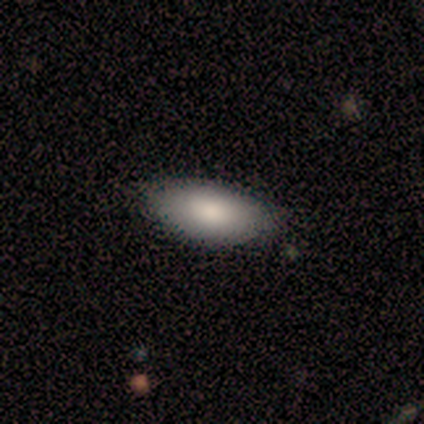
Smooth or featured? smooth (100%)
How rounded? in between (100%)
Merging? none (80%)